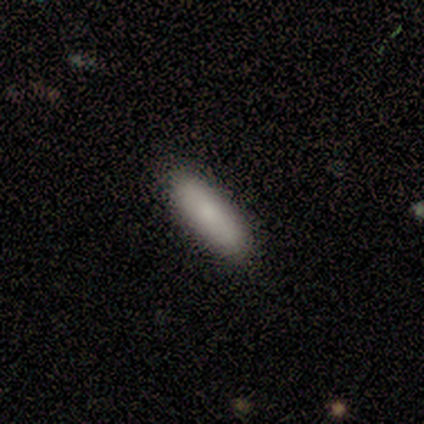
Smooth or featured?
  - smooth: 100% *
  - featured or disk: 0%
  - star or artifact: 0%
How rounded?
  - in between: 60% *
  - cigar-shaped: 40%
  - round: 0%
Merging?
  - none: 100% *
  - minor disturbance: 0%
  - major disturbance: 0%
  - merger: 0%